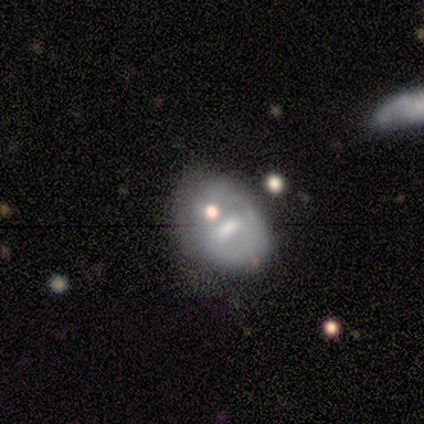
smooth_or_featured: featured or disk (p=0.60) [alt: smooth p=0.40]
disk_edge_on: no (p=1.00)
bar: weak (p=1.00)
has_spiral_arms: no (p=1.00)
bulge_size: moderate (p=0.67) [alt: small p=0.33]
merging: none (p=0.80) [alt: major disturbance p=0.20]